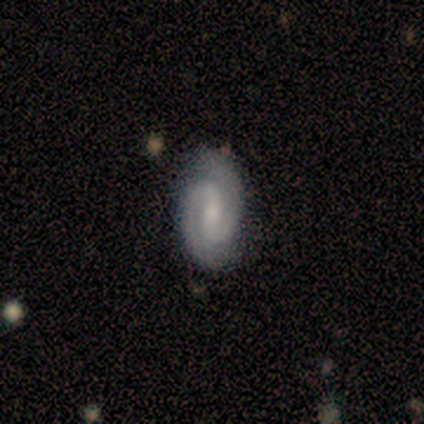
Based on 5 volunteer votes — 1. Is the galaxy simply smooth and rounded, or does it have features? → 100% featured or disk, 0% smooth, 0% star or artifact.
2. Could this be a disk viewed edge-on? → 100% no, 0% yes.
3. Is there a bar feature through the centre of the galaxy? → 40% strong (tied), 40% weak (tied), 20% no.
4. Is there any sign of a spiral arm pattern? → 100% yes, 0% no.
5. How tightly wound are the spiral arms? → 80% tight, 20% medium, 0% loose.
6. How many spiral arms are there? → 100% 2, 0% 1, 0% 3, 0% 4, 0% more than 4, 0% can't tell.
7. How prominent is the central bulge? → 60% moderate, 20% small, 20% none, 0% dominant, 0% large.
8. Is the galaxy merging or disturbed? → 80% none, 20% minor disturbance, 0% major disturbance, 0% merger.